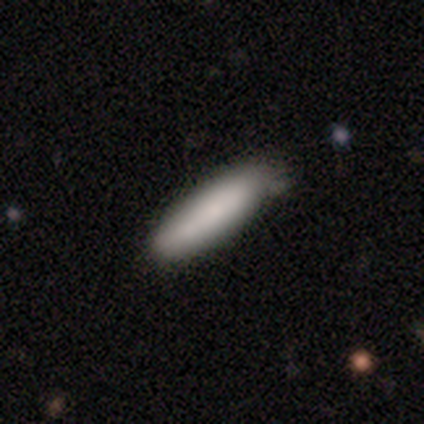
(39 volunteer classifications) Smooth or featured: smooth — 74% (featured or disk — 15%)
How rounded: cigar-shaped — 72% (in between — 28%)
Merging: none — 57% (minor disturbance — 37%)